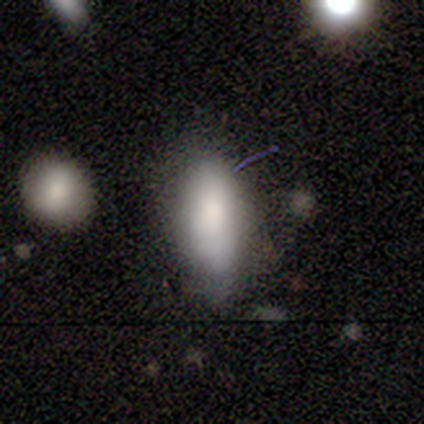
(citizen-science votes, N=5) Smooth or featured? smooth (80%)
How rounded? in between (75%)
Merging? none (50%, tied with major disturbance)